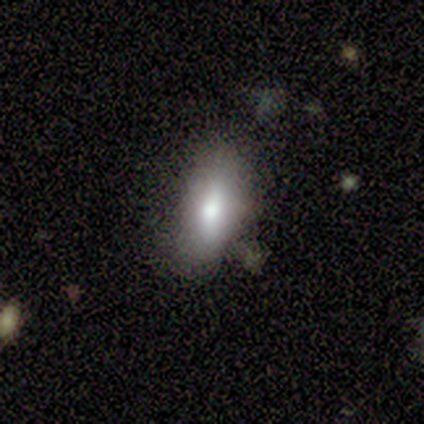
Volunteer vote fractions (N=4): This is likely a smooth galaxy (75%). How rounded: clearly in between (100%). Merging: clearly none (100%).